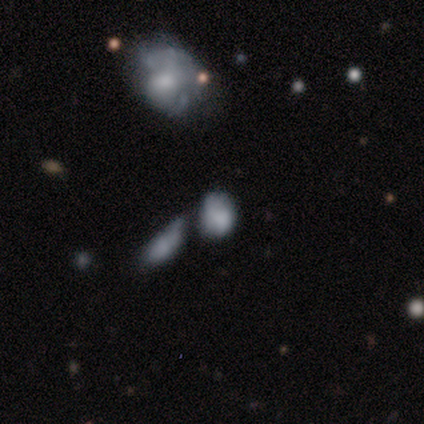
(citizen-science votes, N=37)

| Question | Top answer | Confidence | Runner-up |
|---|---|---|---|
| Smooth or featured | smooth | 59% | featured or disk (27%) |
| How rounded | in between | 68% | round (32%) |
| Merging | minor disturbance | 34% | tied: merger (34%) |